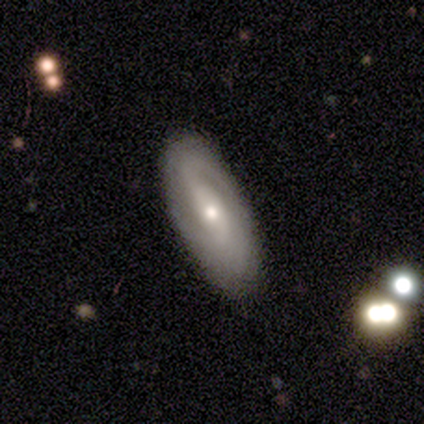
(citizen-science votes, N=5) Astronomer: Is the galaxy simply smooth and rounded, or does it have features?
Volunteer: featured or disk — 100%.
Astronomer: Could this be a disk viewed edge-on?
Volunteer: no — 100%.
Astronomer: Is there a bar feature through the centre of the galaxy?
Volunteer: strong — 80%.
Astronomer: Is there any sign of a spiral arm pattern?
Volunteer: yes — 100%.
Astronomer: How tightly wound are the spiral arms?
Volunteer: medium — 40%, tied with loose at 40%.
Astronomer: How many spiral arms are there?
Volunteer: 2 — 80%.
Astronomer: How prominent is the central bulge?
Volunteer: moderate — 80%.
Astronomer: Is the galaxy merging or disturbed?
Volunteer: none — 80%.